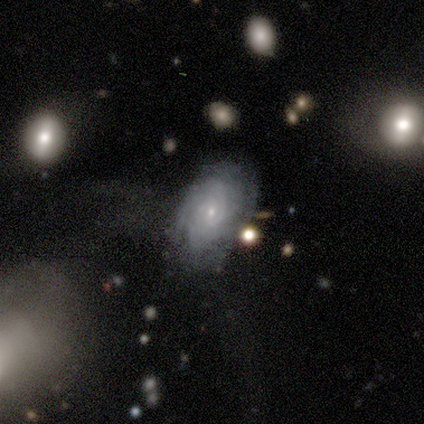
Morphology: type=featured or disk (67%); edge-on=no (100%); bar=no (100%); spiral arms=yes (100%); winding=tight (50%, tied with loose); arm count=can't tell (100%); bulge=moderate (50%, tied with small); merging=none (100%).